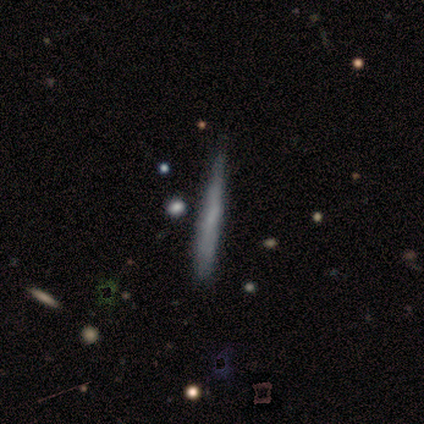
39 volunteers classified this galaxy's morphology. Q: Smooth or featured?
A: smooth (64%); runner-up: featured or disk (31%)
Q: How rounded?
A: cigar-shaped (100%)
Q: Merging?
A: none (65%); runner-up: minor disturbance (30%)